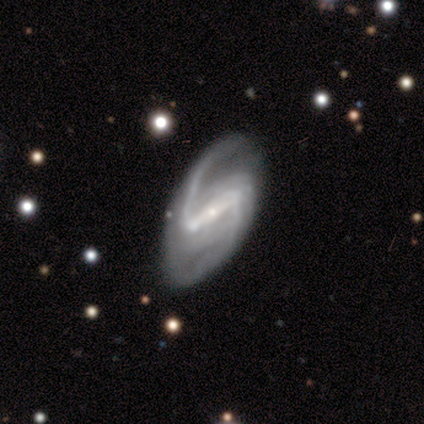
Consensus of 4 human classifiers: Morphology: type=featured or disk (100%); edge-on=no (100%); bar=strong (100%); spiral arms=yes (100%); winding=loose (50%); arm count=2 (100%); bulge=small (100%); merging=none (50%).